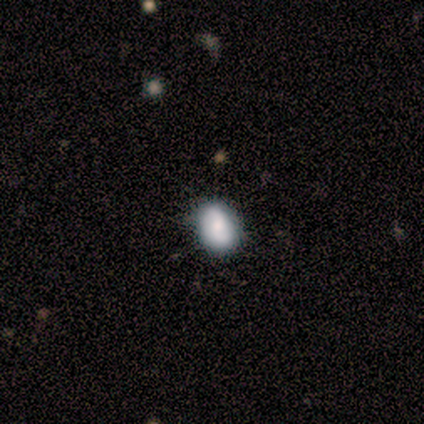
Smooth or featured? 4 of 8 (50%) said smooth. How rounded? 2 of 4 (50%, tied with in between) said round. Merging? 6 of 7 (86%) said none.